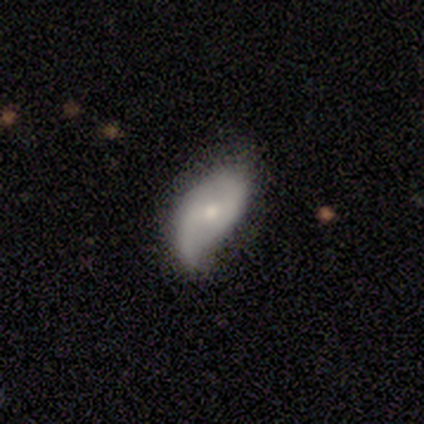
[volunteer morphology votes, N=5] This is likely a featured or disk galaxy (60%). It is clearly not viewed edge-on (100%). Bar: clearly no (100%). Spiral arm pattern: likely yes (67%). Spiral arm count: possibly 2 (50%, tied with can't tell). Spiral winding: possibly medium (50%, tied with loose). Central bulge: marginally moderate (33%, tied with small and none). Merging: likely none (60%).